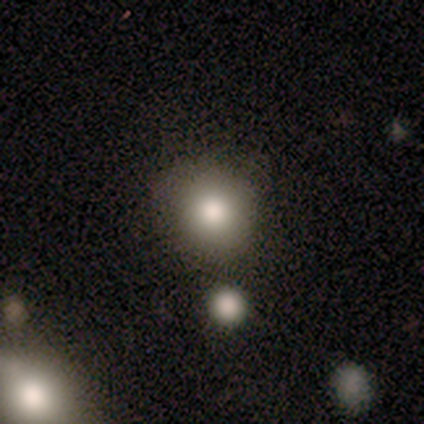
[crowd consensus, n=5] This appears to be a smooth galaxy with no disk features (100%) that is round (100%). Merging: none (100%).